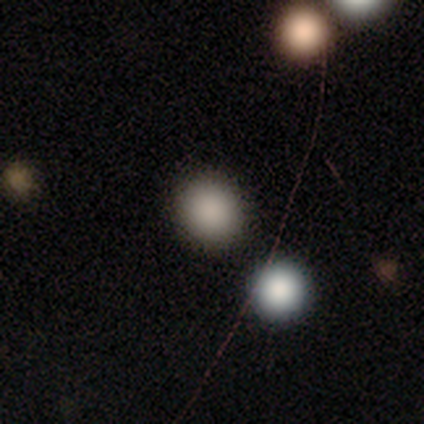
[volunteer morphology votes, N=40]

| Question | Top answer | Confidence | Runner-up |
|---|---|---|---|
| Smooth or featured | smooth | 88% | star or artifact (12%) |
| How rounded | round | 83% | in between (17%) |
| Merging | none | 74% | merger (14%) |